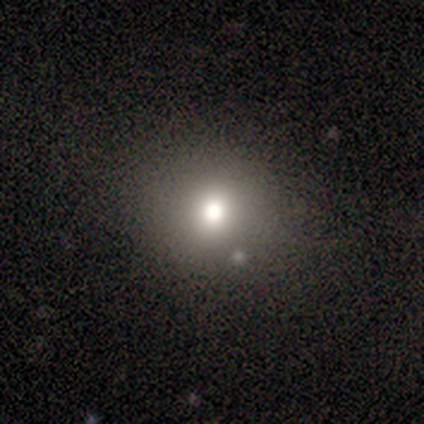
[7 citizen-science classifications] A smooth galaxy with no disk features (86%) that is round (100%).

Vote fractions:
- Smooth or featured? smooth: 86% / star or artifact: 14% / featured or disk: 0%
- How rounded? round: 100% / in between: 0% / cigar-shaped: 0%
- Merging? none: 83% / major disturbance: 17% / minor disturbance: 0% / merger: 0%